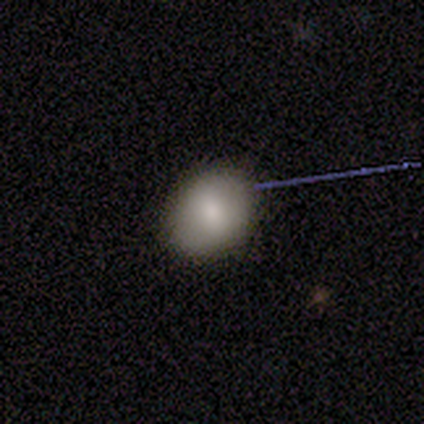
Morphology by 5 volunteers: Volunteers were most divided on "smooth or featured": smooth: 80%, featured or disk: 20%, star or artifact: 0%. More confident: how rounded — round (100%); merging — none (80%).